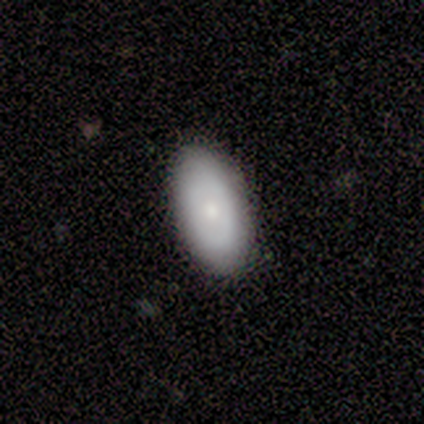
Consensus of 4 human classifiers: Smooth or featured? 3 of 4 (75%) said smooth. How rounded? 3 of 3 (100%) said in between. Merging? 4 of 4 (100%) said none.